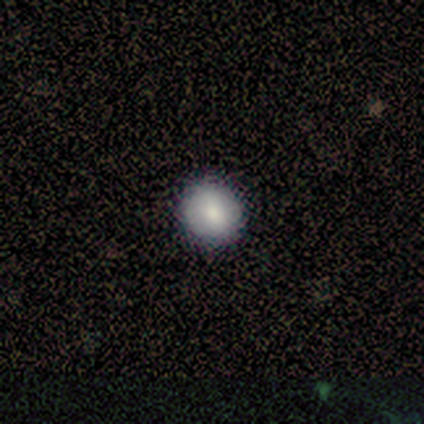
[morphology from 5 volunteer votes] Q: Smooth or featured?
A: smooth (100%)
Q: How rounded?
A: round (100%)
Q: Merging?
A: none (100%)